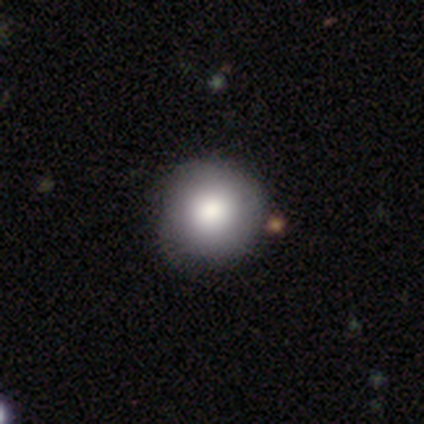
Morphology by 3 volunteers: smooth-or-featured: featured or disk: 67% | smooth: 33% | star or artifact: 0%
  disk-edge-on: yes: 50% (tied) | no: 50% (tied)
    edge-on-bulge: boxy: 100% | none: 0% | rounded: 0%
  merging: none: 67% | major disturbance: 33% | minor disturbance: 0% | merger: 0%